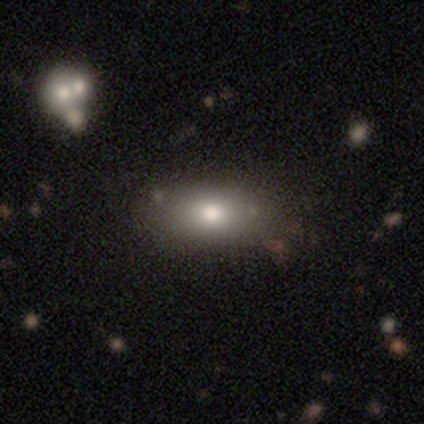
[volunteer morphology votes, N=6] Q: Smooth or featured?
A: smooth (100%)
Q: How rounded?
A: in between (83%); runner-up: round (17%)
Q: Merging?
A: none (100%)